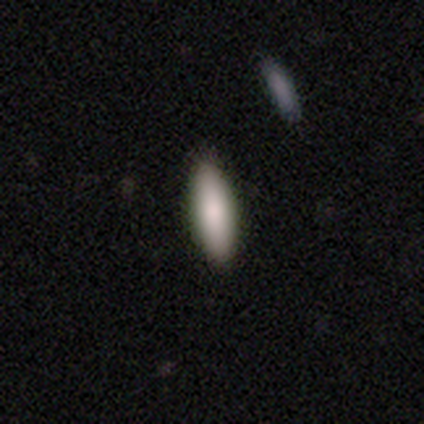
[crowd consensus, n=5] Smooth or featured?
  - smooth: 100% *
  - featured or disk: 0%
  - star or artifact: 0%
How rounded?
  - in between: 80% *
  - cigar-shaped: 20%
  - round: 0%
Merging?
  - none: 80% *
  - minor disturbance: 20%
  - major disturbance: 0%
  - merger: 0%